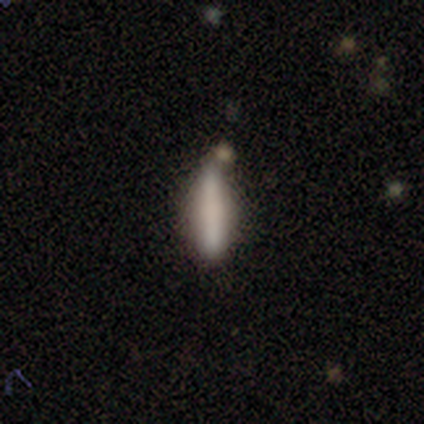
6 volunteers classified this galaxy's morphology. smooth-or-featured: smooth: 83% | featured or disk: 17% | star or artifact: 0%
  how-rounded: cigar-shaped: 60% | in between: 40% | round: 0%
  merging: none: 83% | minor disturbance: 17% | major disturbance: 0% | merger: 0%